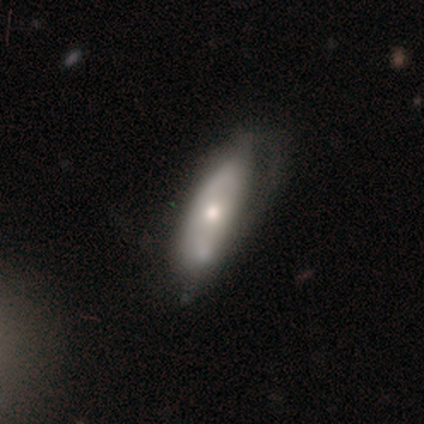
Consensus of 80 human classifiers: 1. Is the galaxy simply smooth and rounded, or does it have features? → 51% featured or disk, 46% smooth, 2% star or artifact.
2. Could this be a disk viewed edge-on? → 90% no, 10% yes.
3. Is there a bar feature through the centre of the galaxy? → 86% no, 11% weak, 3% strong.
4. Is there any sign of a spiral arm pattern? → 62% no, 38% yes.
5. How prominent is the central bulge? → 62% moderate, 30% small, 5% large, 3% dominant, 0% none.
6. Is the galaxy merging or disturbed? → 21% minor disturbance, 19% none, 6% major disturbance, 4% merger.